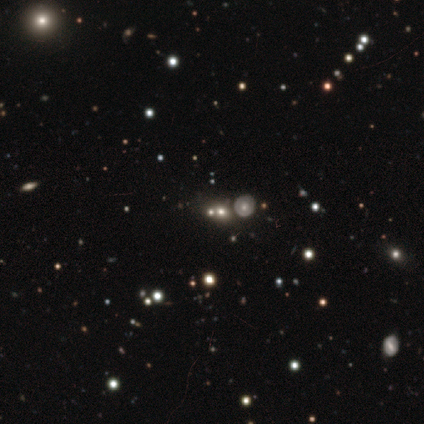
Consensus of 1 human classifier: Smooth or featured? star or artifact (100%)